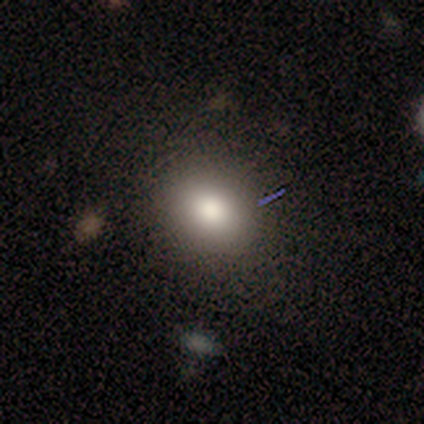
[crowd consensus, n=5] Smooth or featured? 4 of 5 (80%) said smooth. How rounded? 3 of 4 (75%) said round. Merging? 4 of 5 (80%) said none.